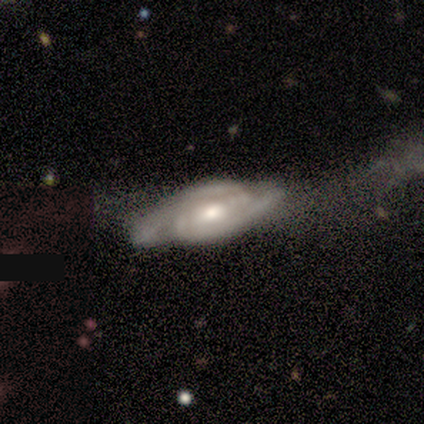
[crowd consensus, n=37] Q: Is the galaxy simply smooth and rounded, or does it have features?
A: featured or disk — 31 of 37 (84%).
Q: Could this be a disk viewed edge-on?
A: no — 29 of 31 (94%).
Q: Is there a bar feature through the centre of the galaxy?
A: weak — 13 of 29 (45%).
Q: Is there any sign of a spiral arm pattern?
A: yes — 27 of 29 (93%).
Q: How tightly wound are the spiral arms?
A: tight — 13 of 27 (48%).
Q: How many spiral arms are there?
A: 2 — 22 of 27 (81%).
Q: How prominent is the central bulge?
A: moderate — 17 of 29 (59%).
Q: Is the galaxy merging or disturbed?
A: none — 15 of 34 (44%).